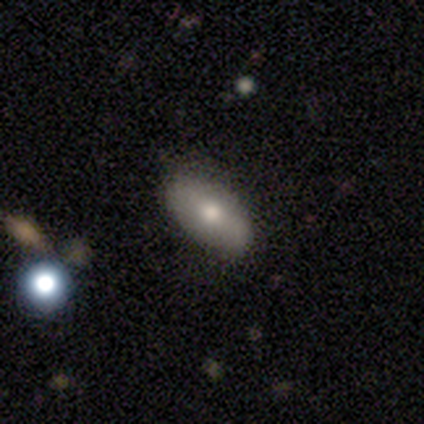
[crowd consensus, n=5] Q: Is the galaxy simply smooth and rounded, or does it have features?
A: smooth — 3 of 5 (60%).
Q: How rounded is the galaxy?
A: in between — 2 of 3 (67%).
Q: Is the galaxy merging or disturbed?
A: none — 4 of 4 (100%).